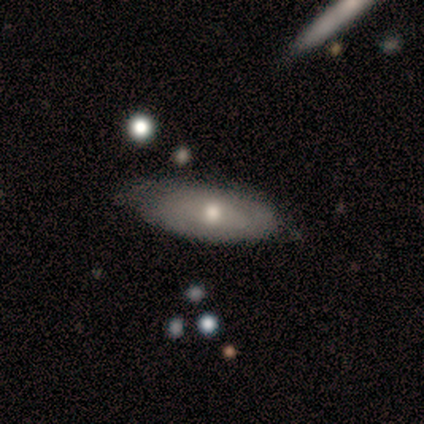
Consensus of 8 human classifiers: This is likely a featured or disk galaxy (75%). It is clearly not viewed edge-on (83%). Bar: likely no (60%). Spiral arm pattern: clearly no (80%). Central bulge: likely small (60%). Merging: clearly none (88%).